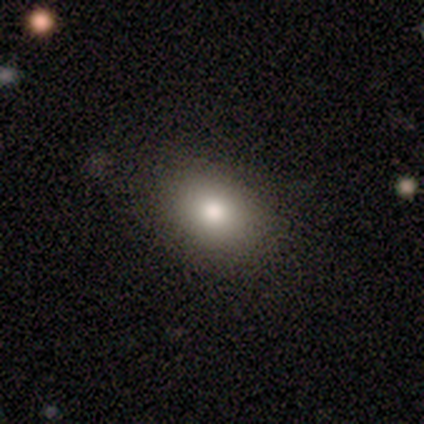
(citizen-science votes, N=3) This appears to be a smooth galaxy with no disk features (67%) that is in between round and cigar-shaped (100%). Merging: none (100%).